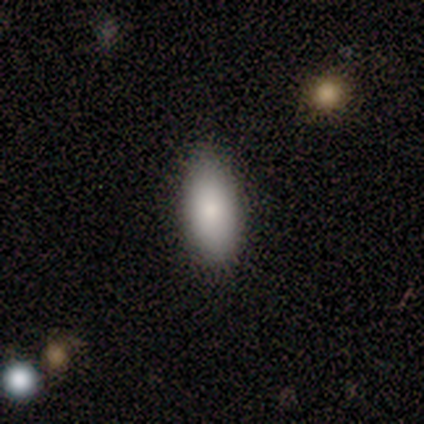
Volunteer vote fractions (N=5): Smooth or featured: smooth — 100%
How rounded: in between — 100%
Merging: none — 80% (major disturbance — 20%)